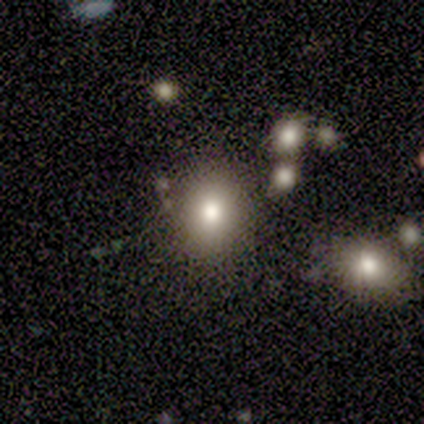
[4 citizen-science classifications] Q: Smooth or featured?
A: smooth (75%); runner-up: star or artifact (25%)
Q: How rounded?
A: in between (67%); runner-up: round (33%)
Q: Merging?
A: none (67%); runner-up: minor disturbance (33%)